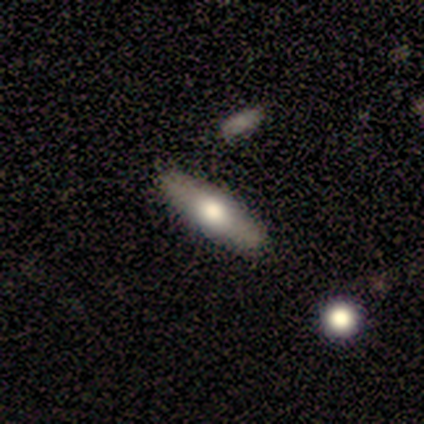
featured or disk 60%, smooth 20%, star or artifact 20%. Down the decision tree: edge-on disk — yes (100%); edge-on bulge — rounded (100%); merging — none (100%).